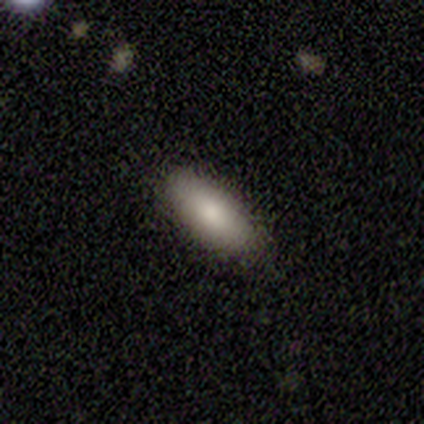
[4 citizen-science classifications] Consensus on every question: smooth or featured — smooth (100%); how rounded — in between (100%); merging — none (100%).